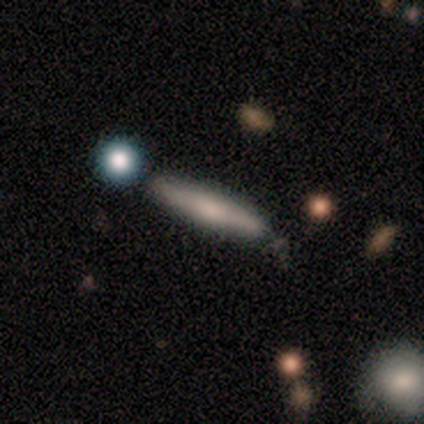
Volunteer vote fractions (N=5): Overall: featured or disk (60%; smooth 40%). Edge-on disk: yes (100%). Edge-on bulge: rounded (100%). Merging: none (100%).